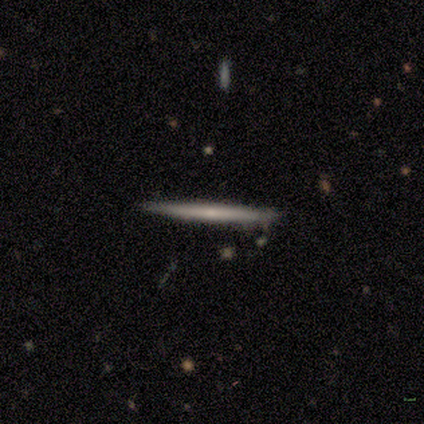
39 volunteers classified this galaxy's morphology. Volunteers were most divided on "smooth or featured": featured or disk: 62%, smooth: 31%, star or artifact: 8%. More confident: edge-on disk — yes (100%); edge-on bulge — none (92%); merging — none (86%).